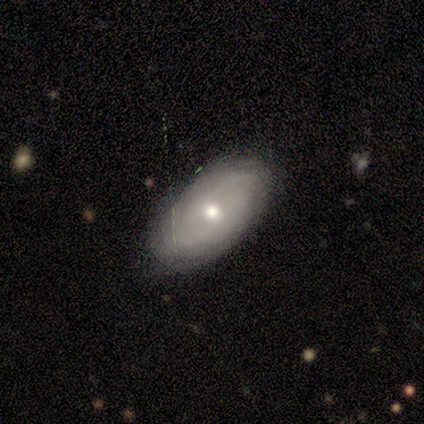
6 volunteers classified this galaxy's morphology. A featured or disk galaxy (83%) with no bar (100%), tight (75%) spiral arms (80%) and a moderate central bulge (80%).

Vote fractions:
- Smooth or featured? featured or disk: 83% / smooth: 17% / star or artifact: 0%
- Edge-on disk? no: 100% / yes: 0%
- Bar? no: 100% / strong: 0% / weak: 0%
- Spiral arms? yes: 80% / no: 20%
- Spiral winding? tight: 75% / medium: 25% / loose: 0%
- Spiral arm count? can't tell: 75% / 2: 25% / 1: 0% / 3: 0% / 4: 0% / more than 4: 0%
- Bulge size? moderate: 80% / small: 20% / dominant: 0% / large: 0% / none: 0%
- Merging? none: 83% / minor disturbance: 17% / major disturbance: 0% / merger: 0%